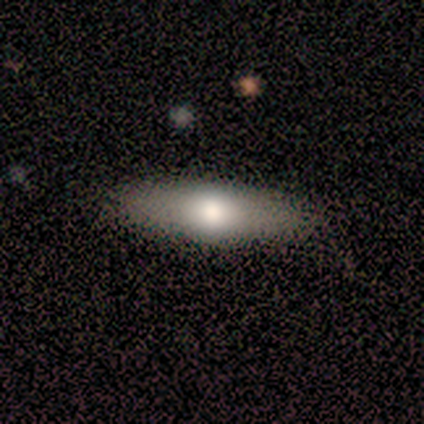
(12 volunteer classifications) Q: Smooth or featured?
A: smooth (92%); runner-up: featured or disk (8%)
Q: How rounded?
A: cigar-shaped (55%); runner-up: in between (45%)
Q: Merging?
A: none (100%)